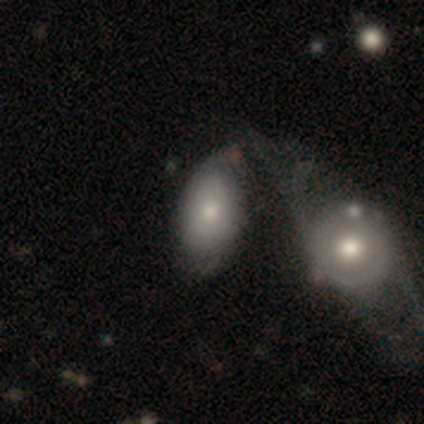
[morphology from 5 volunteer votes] smooth-or-featured: smooth: 60% | featured or disk: 40% | star or artifact: 0%
  how-rounded: in between: 100% | round: 0% | cigar-shaped: 0%
  merging: merger: 60% | minor disturbance: 20% | major disturbance: 20% | none: 0%